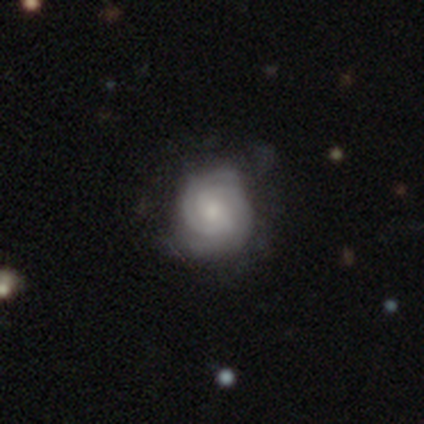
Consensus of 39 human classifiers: A featured or disk galaxy (85%) with no bar (77%), 2 (56%) tight (74%) spiral arms (87%) and a moderate central bulge (39%, tied with small).

Vote fractions:
- Smooth or featured? featured or disk: 85% / smooth: 15% / star or artifact: 0%
- Edge-on disk? no: 94% / yes: 6%
- Bar? no: 77% / weak: 16% / strong: 6%
- Spiral arms? yes: 87% / no: 13%
- Spiral winding? tight: 74% / medium: 22% / loose: 4%
- Spiral arm count? 2: 56% / 3: 30% / can't tell: 15% / 1: 0% / 4: 0% / more than 4: 0%
- Bulge size? moderate: 39% (tied) / small: 39% (tied) / none: 13% / large: 6% / dominant: 3%
- Merging? none: 64% / minor disturbance: 26% / major disturbance: 8% / merger: 3%